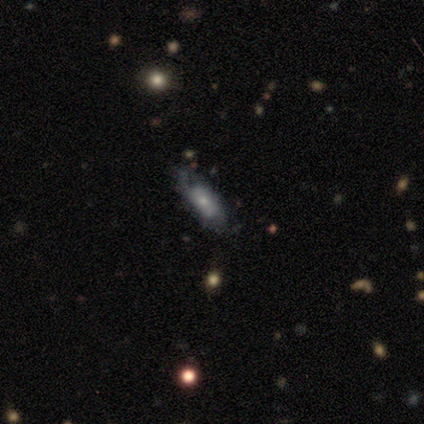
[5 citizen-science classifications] Volunteers were most divided on "smooth or featured": smooth: 60%, featured or disk: 40%, star or artifact: 0%. More confident: how rounded — in between (100%); merging — none (60%).